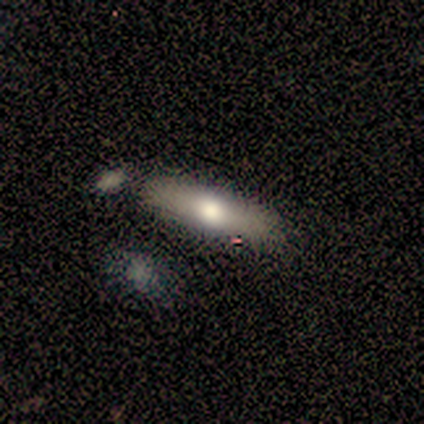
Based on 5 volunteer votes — smooth-or-featured: smooth: 80% | featured or disk: 20% | star or artifact: 0%
  how-rounded: cigar-shaped: 75% | in between: 25% | round: 0%
  merging: none: 60% | minor disturbance: 20% | major disturbance: 20% | merger: 0%